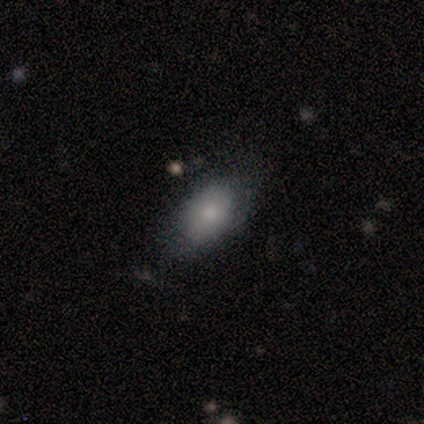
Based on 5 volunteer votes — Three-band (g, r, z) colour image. It shows a smooth galaxy with no disk features (80%) that is in between round and cigar-shaped (100%). Merging: none (40%, tied with minor disturbance).